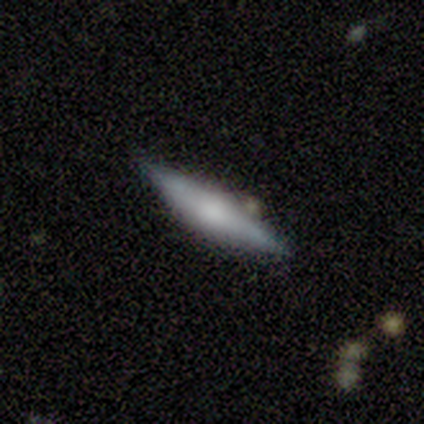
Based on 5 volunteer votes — smooth-or-featured: smooth: 40% (tied) | featured or disk: 40% (tied) | star or artifact: 20%
  how-rounded: cigar-shaped: 100% | round: 0% | in between: 0%
  merging: none: 100% | minor disturbance: 0% | major disturbance: 0% | merger: 0%